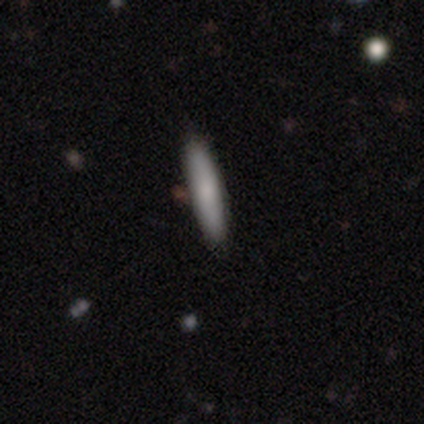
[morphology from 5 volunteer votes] smooth_or_featured: smooth (p=0.60) [alt: featured or disk p=0.40]
how_rounded: cigar-shaped (p=1.00)
merging: none (p=1.00)